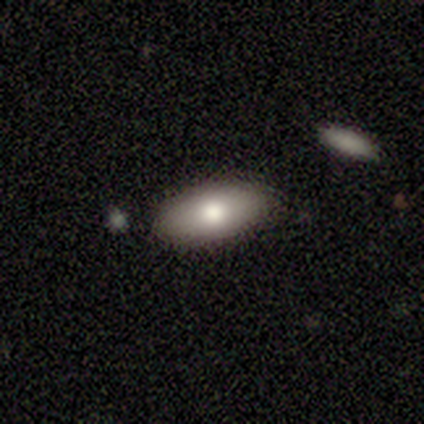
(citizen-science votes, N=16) Smooth or featured?
  - smooth: 69% *
  - featured or disk: 19%
  - star or artifact: 12%
How rounded?
  - in between: 91% *
  - cigar-shaped: 9%
  - round: 0%
Merging?
  - none: 71% *
  - minor disturbance: 21%
  - merger: 7%
  - major disturbance: 0%